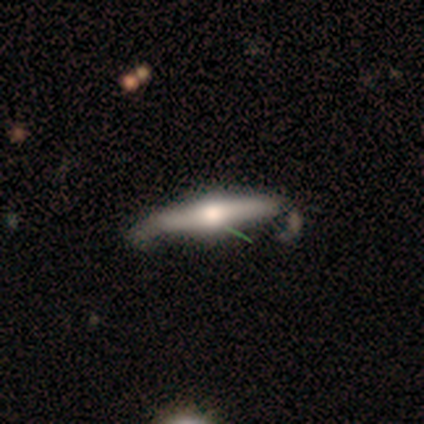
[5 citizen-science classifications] Smooth or featured: featured or disk — 80% (star or artifact — 20%)
Edge-on disk: yes — 100%
Edge-on bulge: rounded — 100%
Merging: minor disturbance — 50% (none — 25%)